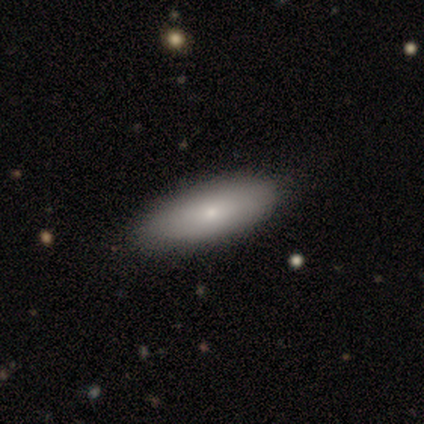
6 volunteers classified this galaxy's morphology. A smooth galaxy with no disk features (67%) that is cigar-shaped (75%).

Vote fractions:
- Smooth or featured? smooth: 67% / featured or disk: 33% / star or artifact: 0%
- How rounded? cigar-shaped: 75% / in between: 25% / round: 0%
- Merging? none: 100% / minor disturbance: 0% / major disturbance: 0% / merger: 0%